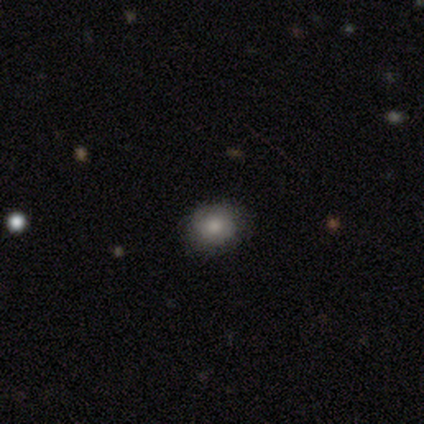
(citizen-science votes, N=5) Volunteers were most divided on "how rounded" (2-way tie): round: 50%, in between: 50%, cigar-shaped: 0%. More confident: smooth or featured — smooth (80%); merging — none (80%).